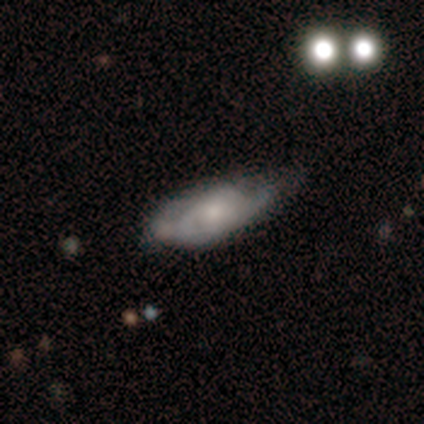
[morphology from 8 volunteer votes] smooth-or-featured: featured or disk: 62% | smooth: 25% | star or artifact: 12%
  disk-edge-on: no: 100% | yes: 0%
    bar: no: 80% | weak: 20% | strong: 0%
    has-spiral-arms: yes: 80% | no: 20%
      spiral-winding: medium: 50% | tight: 25% | loose: 25%
      spiral-arm-count: 1: 25% (tied) | 2: 25% (tied) | 3: 25% (tied) | can't tell: 25% (tied) | 4: 0% | more than 4: 0%
    bulge-size: moderate: 60% | large: 20% | none: 20% | dominant: 0% | small: 0%
  merging: minor disturbance: 57% | none: 29% | major disturbance: 14% | merger: 0%